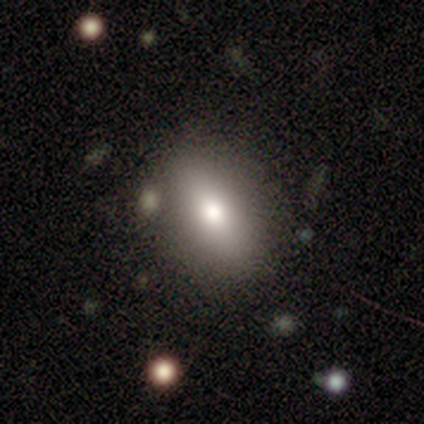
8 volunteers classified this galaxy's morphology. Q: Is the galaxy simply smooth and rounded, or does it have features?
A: smooth — 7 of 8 (88%).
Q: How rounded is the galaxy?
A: in between — 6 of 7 (86%).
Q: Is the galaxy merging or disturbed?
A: none — 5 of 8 (62%).